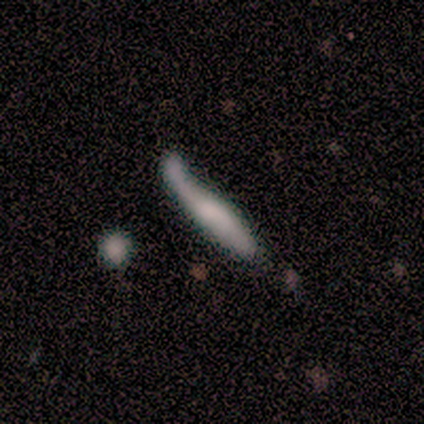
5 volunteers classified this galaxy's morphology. Q: Smooth or featured?
A: smooth (60%); runner-up: featured or disk (40%)
Q: How rounded?
A: cigar-shaped (100%)
Q: Merging?
A: major disturbance (40%); tied with: merger (40%)